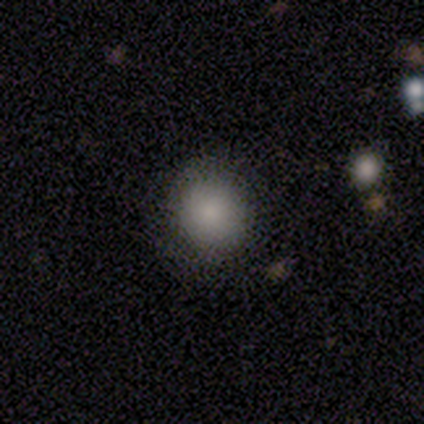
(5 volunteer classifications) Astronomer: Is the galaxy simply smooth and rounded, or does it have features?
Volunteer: smooth — 60%.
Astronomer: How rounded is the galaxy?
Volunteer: round — 100%.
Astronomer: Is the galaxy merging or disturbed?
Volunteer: none — 100%.